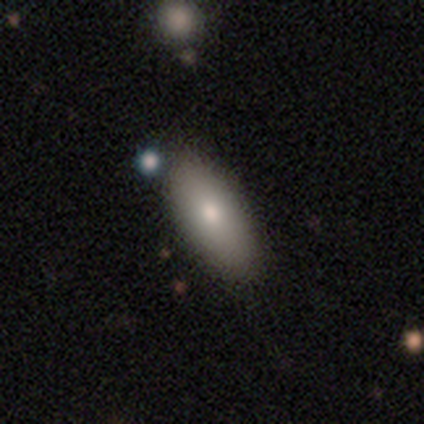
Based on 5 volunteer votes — Smooth or featured: smooth — 80% (featured or disk — 20%)
How rounded: in between — 100%
Merging: none — 100%